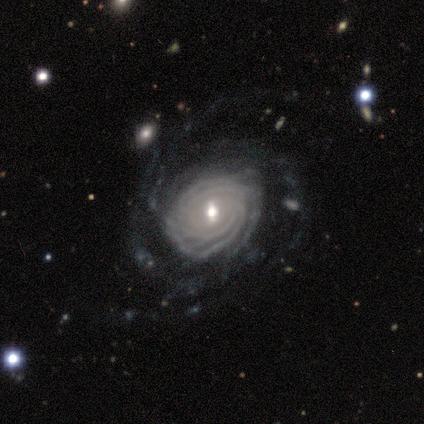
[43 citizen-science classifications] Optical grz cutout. It shows a featured or disk galaxy (93%) with a weak bar (69%), more than 4 (39%) tight (84%) spiral arms (97%) and a moderate central bulge (51%). Merging: none (62%).